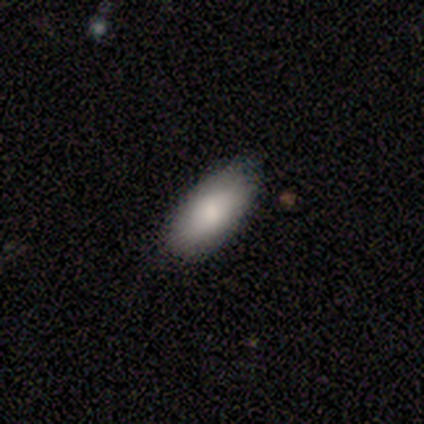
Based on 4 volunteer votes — Smooth or featured?
  - smooth: 100% *
  - featured or disk: 0%
  - star or artifact: 0%
How rounded?
  - in between: 100% *
  - round: 0%
  - cigar-shaped: 0%
Merging?
  - none: 75% *
  - minor disturbance: 25%
  - major disturbance: 0%
  - merger: 0%